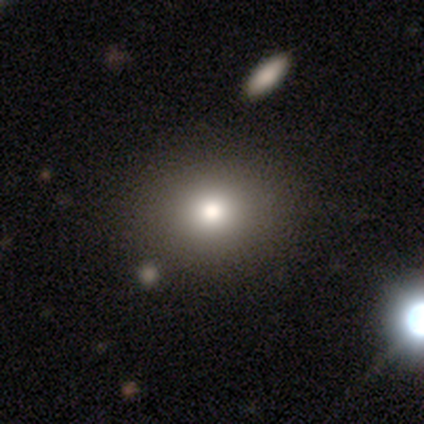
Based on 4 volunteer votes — This appears to be a smooth galaxy with no disk features (50%, tied with star or artifact) that is in between round and cigar-shaped (100%). Merging: none (100%).